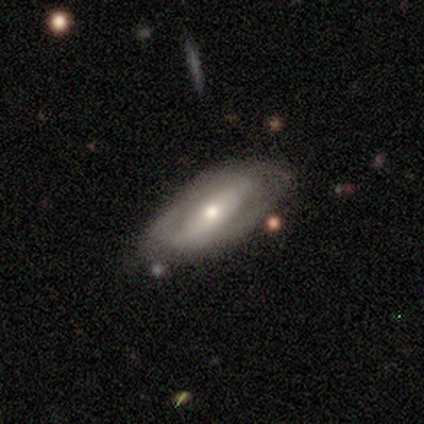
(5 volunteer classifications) A featured or disk galaxy (100%) with a strong bar (75%), 2 (100%) tight (100%) spiral arms (50%, tied with no) and a moderate central bulge (75%).

Vote fractions:
- Smooth or featured? featured or disk: 100% / smooth: 0% / star or artifact: 0%
- Edge-on disk? no: 80% / yes: 20%
- Bar? strong: 75% / no: 25% / weak: 0%
- Spiral arms? yes: 50% (tied) / no: 50% (tied)
- Spiral winding? tight: 100% / medium: 0% / loose: 0%
- Spiral arm count? 2: 100% / 1: 0% / 3: 0% / 4: 0% / more than 4: 0% / can't tell: 0%
- Bulge size? moderate: 75% / small: 25% / dominant: 0% / large: 0% / none: 0%
- Merging? none: 40% / minor disturbance: 20% / major disturbance: 20% / merger: 20%